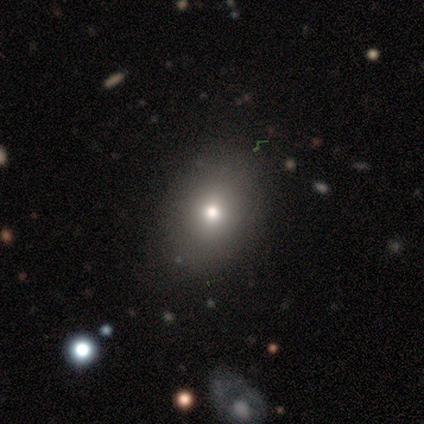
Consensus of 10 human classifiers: Smooth or featured?
  - smooth: 70% *
  - featured or disk: 20%
  - star or artifact: 10%
How rounded?
  - in between: 71% *
  - round: 29%
  - cigar-shaped: 0%
Merging?
  - none: 89% *
  - minor disturbance: 11%
  - major disturbance: 0%
  - merger: 0%